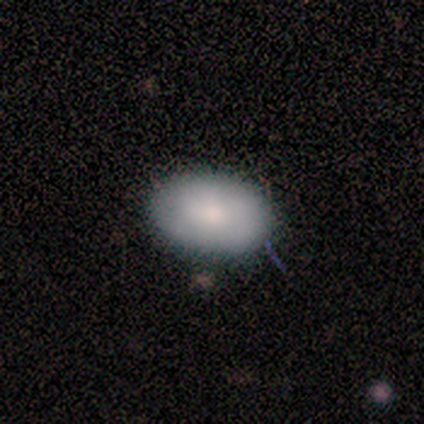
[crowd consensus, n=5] A smooth galaxy with no disk features (100%) that is in between round and cigar-shaped (100%).

Vote fractions:
- Smooth or featured? smooth: 100% / featured or disk: 0% / star or artifact: 0%
- How rounded? in between: 100% / round: 0% / cigar-shaped: 0%
- Merging? none: 80% / minor disturbance: 20% / major disturbance: 0% / merger: 0%